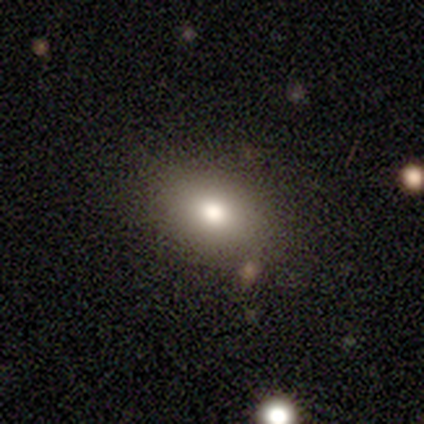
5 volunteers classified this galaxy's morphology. type=smooth (100%); roundness=in between (100%); merging=none (80%).